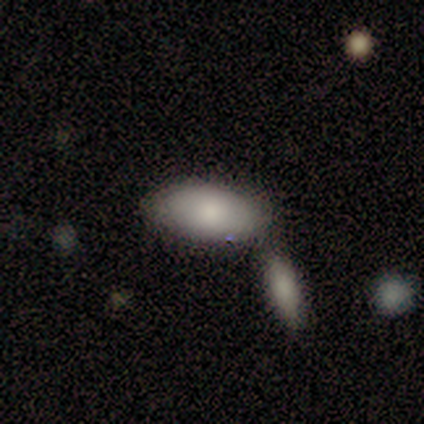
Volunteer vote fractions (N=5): Smooth or featured?
  - smooth: 100% *
  - featured or disk: 0%
  - star or artifact: 0%
How rounded?
  - in between: 100% *
  - round: 0%
  - cigar-shaped: 0%
Merging?
  - none: 40% * (tied)
  - merger: 40% * (tied)
  - minor disturbance: 20%
  - major disturbance: 0%